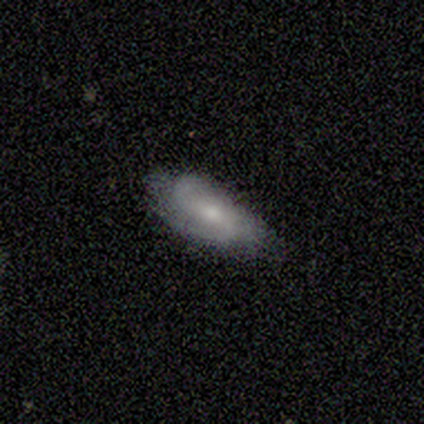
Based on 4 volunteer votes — Smooth or featured? featured or disk (75%)
Edge-on disk? no (100%)
Bar? weak (67%)
Spiral arms? yes (100%)
Spiral winding? medium (67%)
Spiral arm count? 2 (67%)
Bulge size? moderate (67%)
Merging? none (75%)